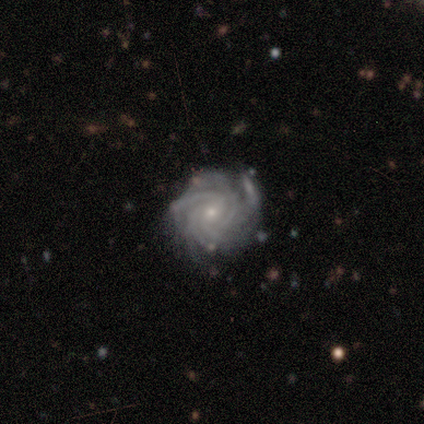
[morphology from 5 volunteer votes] Volunteers were most divided on "spiral arm count" (2-way tie): 4: 40%, more than 4: 40%, can't tell: 20%, 1: 0%, 2: 0%, 3: 0%. More confident: smooth or featured — featured or disk (100%); edge-on disk — no (100%); spiral arms — yes (100%); spiral winding — tight (80%); bulge size — small (80%); bar — no (60%); merging — none (60%).